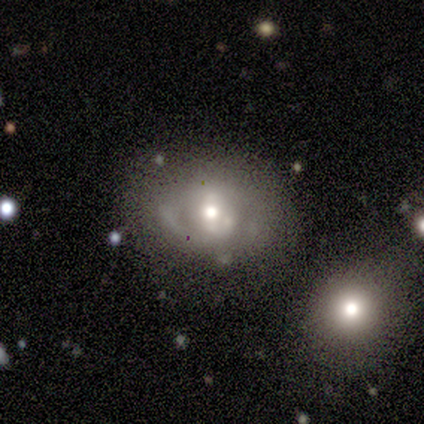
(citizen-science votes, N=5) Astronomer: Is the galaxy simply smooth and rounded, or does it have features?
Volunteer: featured or disk — 80%.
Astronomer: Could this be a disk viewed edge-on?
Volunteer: no — 100%.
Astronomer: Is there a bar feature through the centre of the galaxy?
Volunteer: no — 75%.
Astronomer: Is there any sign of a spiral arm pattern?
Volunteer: no — 75%.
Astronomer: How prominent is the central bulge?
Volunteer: moderate — 100%.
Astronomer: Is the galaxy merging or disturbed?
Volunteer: minor disturbance — 40%, tied with major disturbance at 40%.